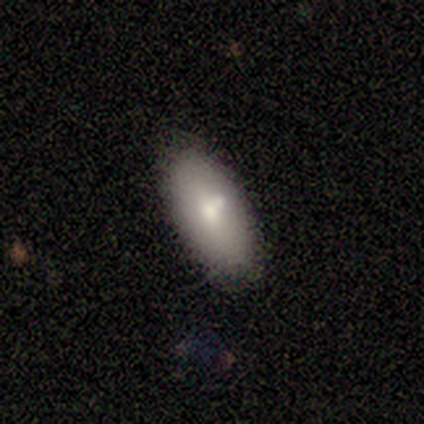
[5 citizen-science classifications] This is clearly a smooth galaxy (80%). How rounded: likely in between (75%). Merging: likely none (75%).